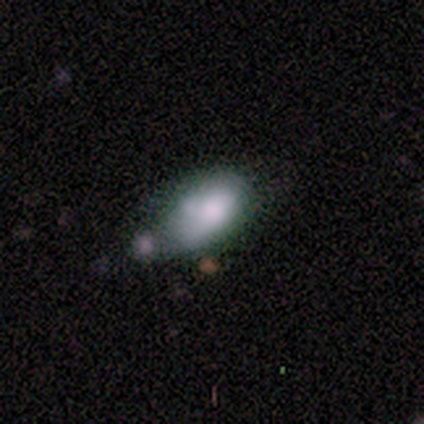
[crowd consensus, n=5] A smooth galaxy with no disk features (60%) that is in between round and cigar-shaped (67%). Merging: minor disturbance (100%).